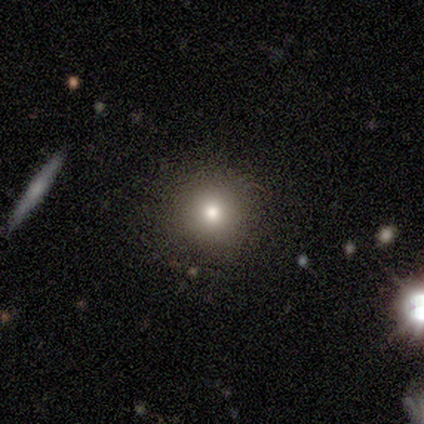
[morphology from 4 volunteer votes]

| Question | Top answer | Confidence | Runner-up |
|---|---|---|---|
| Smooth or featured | smooth | 75% | star or artifact (25%) |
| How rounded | round | 67% | cigar-shaped (33%) |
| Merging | none | 100% | — |